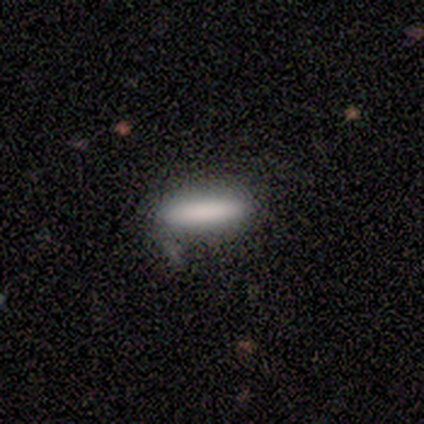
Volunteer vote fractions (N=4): smooth_or_featured: smooth (p=1.00)
how_rounded: cigar-shaped (p=0.75) [alt: in between p=0.25]
merging: none (p=0.50) [alt: minor disturbance p=0.25]